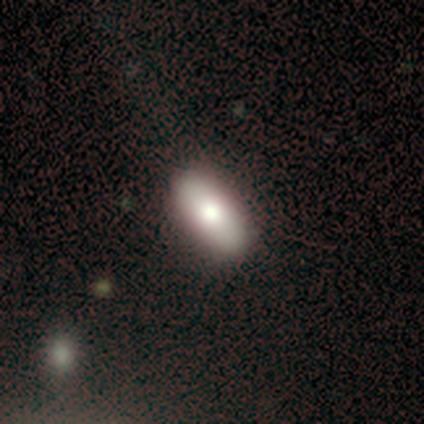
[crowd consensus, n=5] This appears to be a smooth galaxy with no disk features (80%) that is in between round and cigar-shaped (100%). Merging: none (80%).